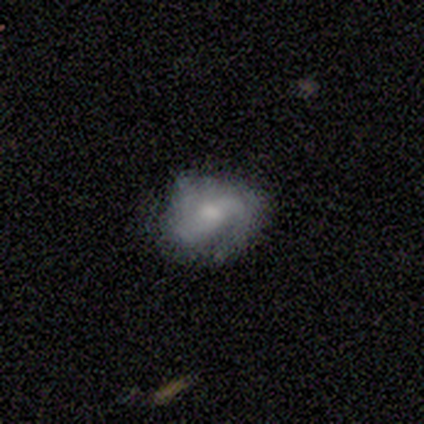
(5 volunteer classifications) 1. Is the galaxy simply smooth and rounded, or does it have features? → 80% smooth, 20% featured or disk, 0% star or artifact.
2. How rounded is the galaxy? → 50% round (tied), 50% in between (tied), 0% cigar-shaped.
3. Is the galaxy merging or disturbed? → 40% minor disturbance (tied), 40% major disturbance (tied), 20% none, 0% merger.